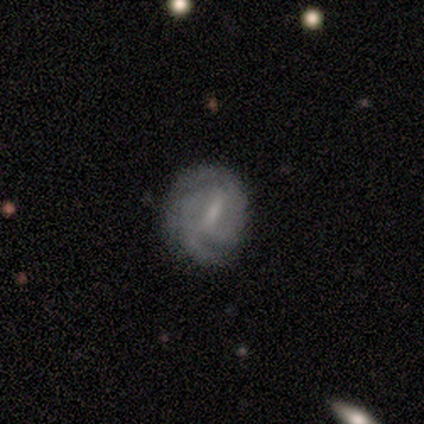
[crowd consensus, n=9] Smooth or featured? 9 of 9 (100%) said featured or disk. Edge-on disk? 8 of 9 (89%) said no. Bar? 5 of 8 (62%) said weak. Spiral arms? 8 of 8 (100%) said yes. Spiral winding? 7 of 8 (88%) said tight. Spiral arm count? 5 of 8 (62%) said 2. Bulge size? 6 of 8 (75%) said small. Merging? 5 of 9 (56%) said none.